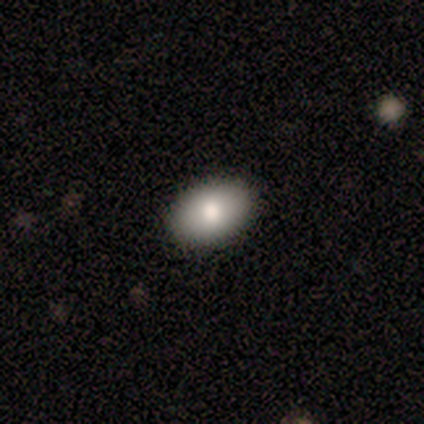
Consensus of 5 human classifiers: A smooth galaxy with no disk features (100%) that is in between round and cigar-shaped (100%).

Vote fractions:
- Smooth or featured? smooth: 100% / featured or disk: 0% / star or artifact: 0%
- How rounded? in between: 100% / round: 0% / cigar-shaped: 0%
- Merging? none: 80% / minor disturbance: 20% / major disturbance: 0% / merger: 0%